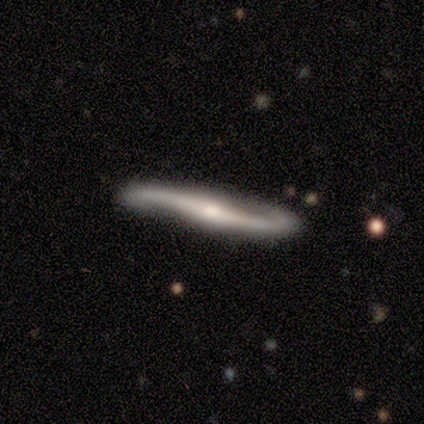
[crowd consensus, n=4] Smooth or featured: featured or disk — 100%
Edge-on disk: yes — 75% (no — 25%)
Edge-on bulge: rounded — 100%
Merging: none — 75% (minor disturbance — 25%)